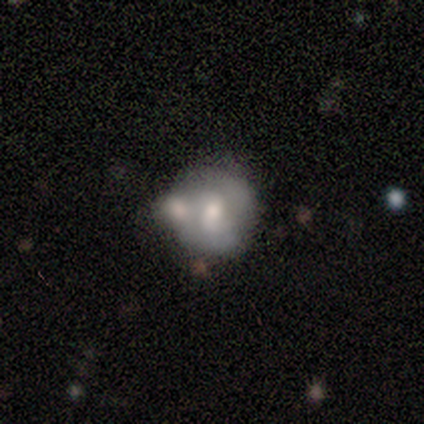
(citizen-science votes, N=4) This is possibly a smooth galaxy (50%). How rounded: clearly round (100%). Merging: marginally none (33%, tied with minor disturbance and merger).